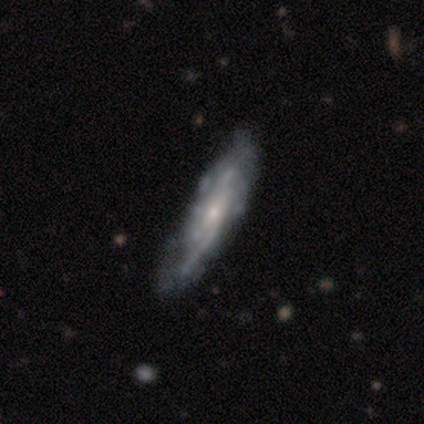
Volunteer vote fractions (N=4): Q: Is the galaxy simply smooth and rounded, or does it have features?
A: featured or disk — 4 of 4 (100%).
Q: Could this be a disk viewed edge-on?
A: no — 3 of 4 (75%).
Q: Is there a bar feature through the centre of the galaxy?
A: weak — 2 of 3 (67%).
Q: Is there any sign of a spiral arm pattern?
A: yes — 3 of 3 (100%).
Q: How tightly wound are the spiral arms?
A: medium — 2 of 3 (67%).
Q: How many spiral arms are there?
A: can't tell — 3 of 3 (100%).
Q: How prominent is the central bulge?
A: small — 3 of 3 (100%).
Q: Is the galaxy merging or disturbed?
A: none — 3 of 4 (75%).